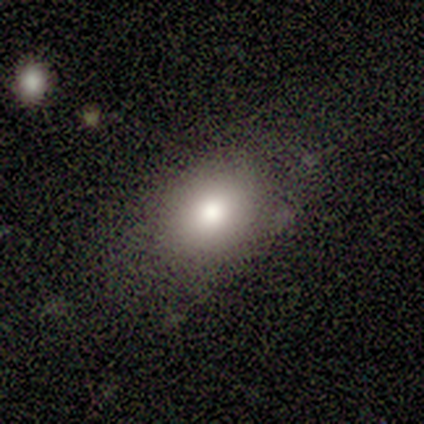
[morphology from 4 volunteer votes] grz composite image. It shows a smooth galaxy with no disk features (75%) that is in between round and cigar-shaped (100%). Merging: none (100%).